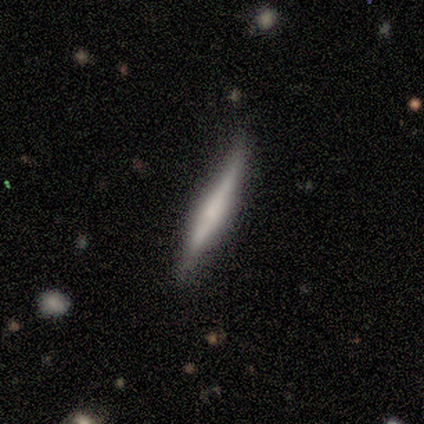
This appears to be a smooth galaxy with no disk features (57%) that is cigar-shaped (100%). Merging: none (71%).